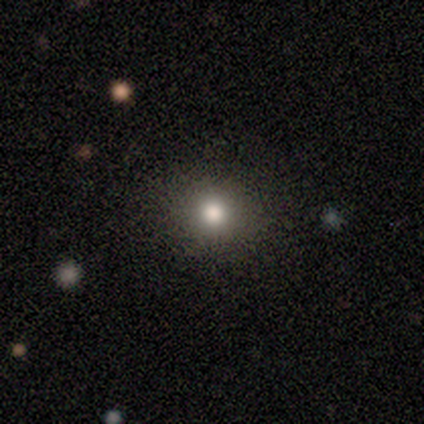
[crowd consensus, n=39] Overall: smooth (67%). How rounded: round (88%). Merging: none (97%).